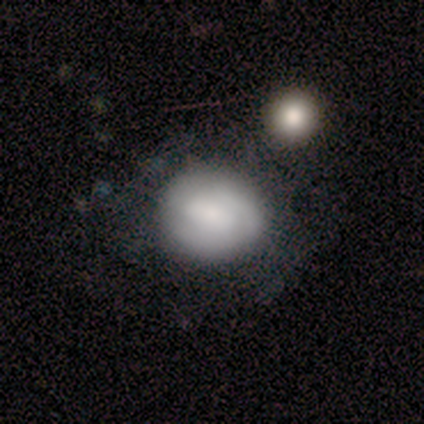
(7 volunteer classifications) smooth 57%, featured or disk 29%, star or artifact 14%. Down the decision tree: how rounded — round (50%, tied with in between); merging — none (33%, tied with minor disturbance and major disturbance).